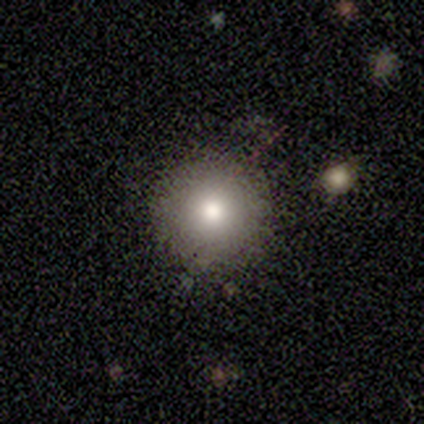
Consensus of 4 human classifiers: This appears to be a smooth galaxy with no disk features (75%) that is round (100%). Merging: none (100%).